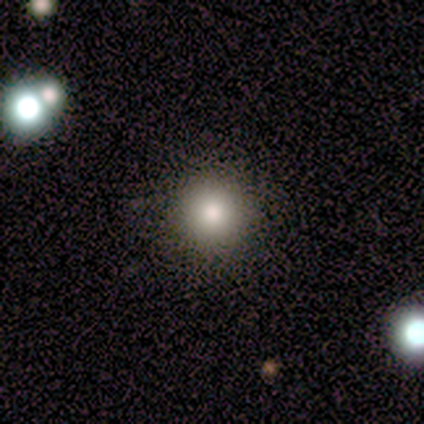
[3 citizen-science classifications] Smooth or featured? 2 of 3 (67%) said smooth. How rounded? 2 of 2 (100%) said round. Merging? 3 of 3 (100%) said none.